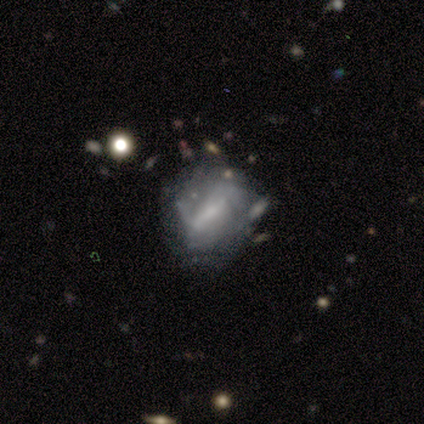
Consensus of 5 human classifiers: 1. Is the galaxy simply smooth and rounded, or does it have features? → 80% featured or disk, 20% smooth, 0% star or artifact.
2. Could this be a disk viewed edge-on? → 100% no, 0% yes.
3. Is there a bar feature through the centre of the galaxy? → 75% strong, 25% weak, 0% no.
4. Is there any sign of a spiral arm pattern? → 75% yes, 25% no.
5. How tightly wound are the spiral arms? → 67% loose, 33% tight, 0% medium.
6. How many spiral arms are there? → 100% 2, 0% 1, 0% 3, 0% 4, 0% more than 4, 0% can't tell.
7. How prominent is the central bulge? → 50% none, 25% moderate, 25% small, 0% dominant, 0% large.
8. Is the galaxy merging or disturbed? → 40% none, 20% minor disturbance, 20% major disturbance, 20% merger.